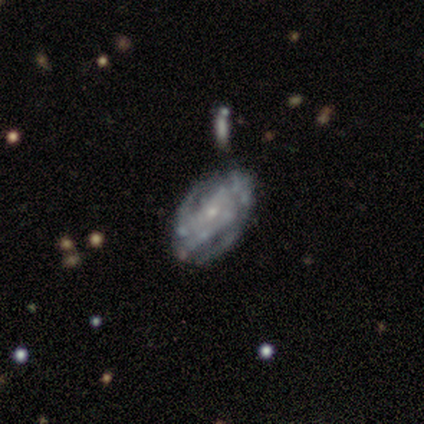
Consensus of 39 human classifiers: Morphology: type=featured or disk (90%); edge-on=no (94%); bar=no (79%); spiral arms=yes (64%); winding=tight (62%); arm count=can't tell (62%); bulge=small (70%); merging=none (38%).